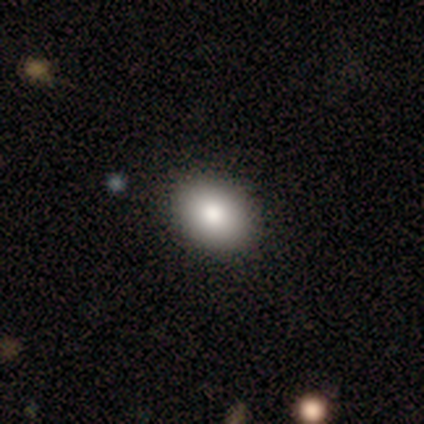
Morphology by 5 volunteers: Smooth or featured? 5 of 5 (100%) said smooth. How rounded? 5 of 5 (100%) said in between. Merging? 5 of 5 (100%) said none.